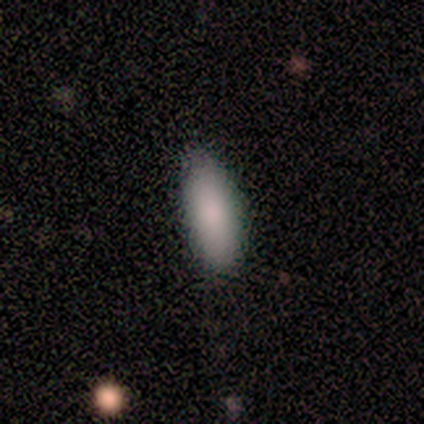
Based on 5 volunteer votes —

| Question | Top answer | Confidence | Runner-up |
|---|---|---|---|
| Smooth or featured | smooth | 80% | star or artifact (20%) |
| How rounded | in between | 75% | cigar-shaped (25%) |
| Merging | none | 75% | minor disturbance (25%) |